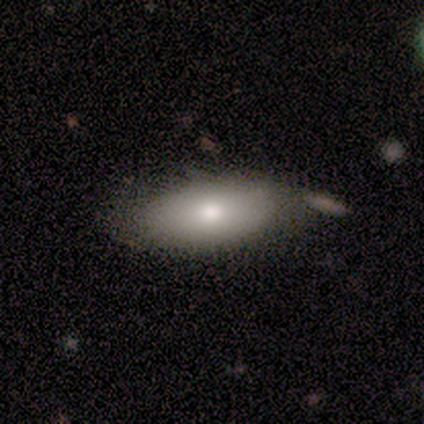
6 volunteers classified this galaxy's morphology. type=smooth (100%); roundness=in between (83%); merging=none (83%).